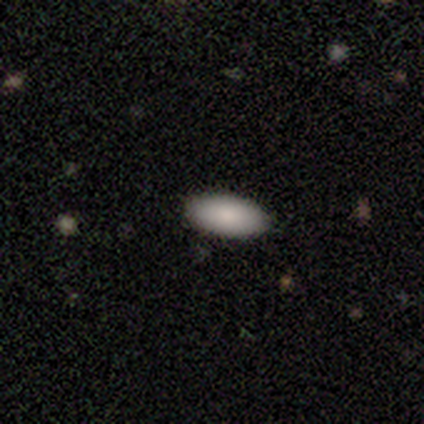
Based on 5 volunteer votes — This appears to be a smooth galaxy with no disk features (100%) that is in between round and cigar-shaped (100%). Merging: none (100%).